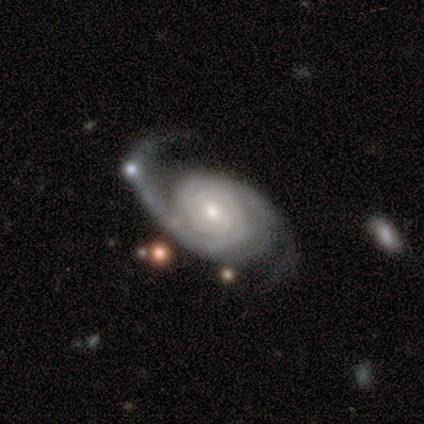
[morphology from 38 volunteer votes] A featured or disk galaxy (95%) with no bar (53%), 2 (56%) tight (69%) spiral arms (100%) and a moderate central bulge (47%). Merging: none (51%).